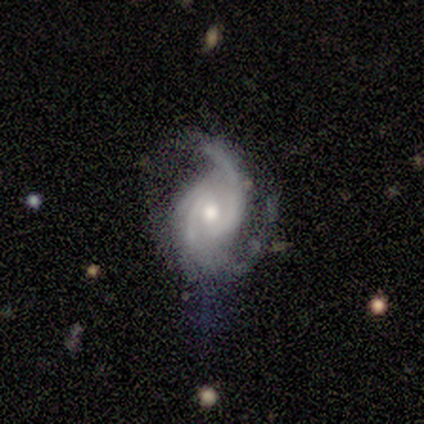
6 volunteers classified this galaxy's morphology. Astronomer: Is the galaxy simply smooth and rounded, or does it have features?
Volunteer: featured or disk — 83%.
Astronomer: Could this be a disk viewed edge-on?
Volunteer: no — 100%.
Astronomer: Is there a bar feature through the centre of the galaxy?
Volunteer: no — 80%.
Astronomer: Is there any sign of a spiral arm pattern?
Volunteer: yes — 100%.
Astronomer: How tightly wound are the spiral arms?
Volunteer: medium — 80%.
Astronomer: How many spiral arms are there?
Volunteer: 3 — 60%.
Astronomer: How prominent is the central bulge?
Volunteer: moderate — 100%.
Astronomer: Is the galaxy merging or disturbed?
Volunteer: none — 60% (runner-up: minor disturbance, 40%).